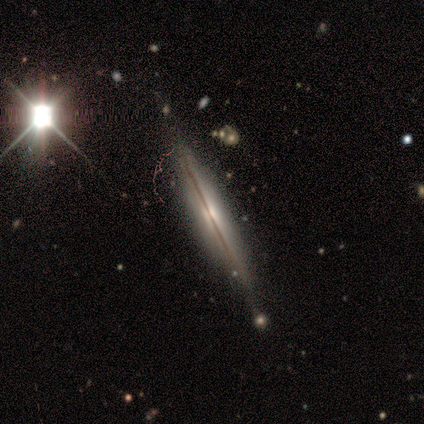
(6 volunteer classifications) Morphology: type=featured or disk (50%); edge-on=yes (67%); edge-on bulge=none (50%, tied with rounded); merging=none (75%).